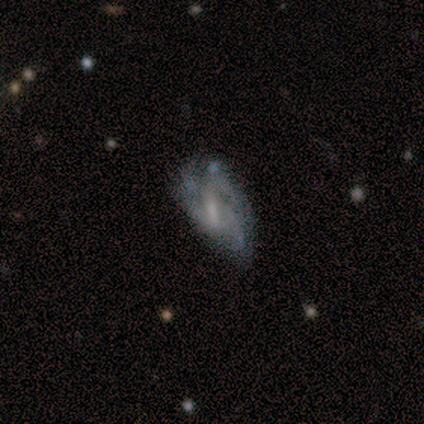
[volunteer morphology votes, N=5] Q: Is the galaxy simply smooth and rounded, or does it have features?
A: smooth — 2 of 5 (40%, tied with featured or disk).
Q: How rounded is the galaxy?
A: in between — 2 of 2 (100%).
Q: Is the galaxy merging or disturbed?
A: none — 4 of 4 (100%).